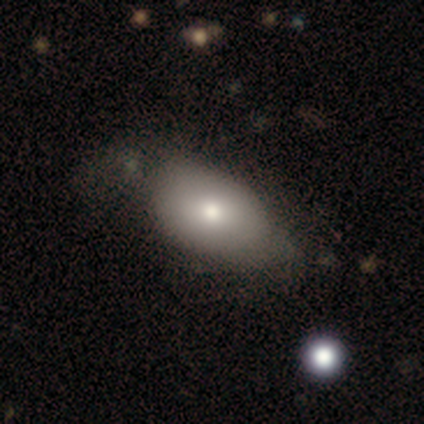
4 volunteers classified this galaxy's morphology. Overall: smooth (75%). How rounded: in between (100%). Merging: none (50%; major disturbance 25%).